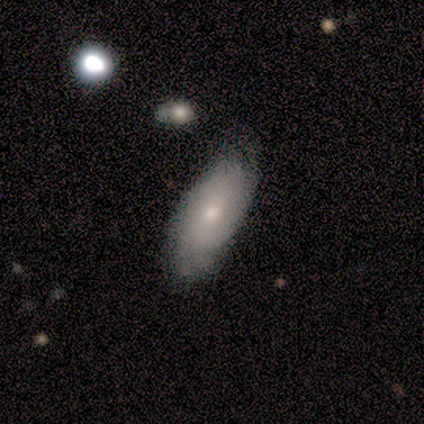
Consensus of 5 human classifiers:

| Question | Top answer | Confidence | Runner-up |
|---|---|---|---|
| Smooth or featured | featured or disk | 60% | smooth (40%) |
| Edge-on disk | no | 100% | — |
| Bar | no | 100% | — |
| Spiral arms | yes | 100% | — |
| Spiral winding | tight | 100% | — |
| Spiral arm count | can't tell | 100% | — |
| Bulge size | moderate | 67% | small (33%) |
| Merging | none | 80% | minor disturbance (20%) |